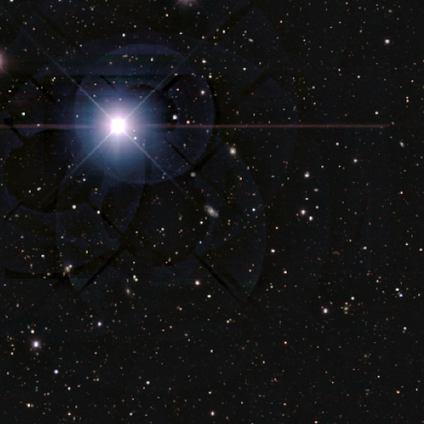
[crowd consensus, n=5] Smooth or featured? 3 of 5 (60%) said featured or disk. Edge-on disk? 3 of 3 (100%) said no. Bar? 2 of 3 (67%) said no. Spiral arms? 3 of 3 (100%) said yes. Spiral winding? 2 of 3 (67%) said medium. Spiral arm count? 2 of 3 (67%) said 2. Bulge size? 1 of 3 (33%, tied with moderate and small) said large. Merging? 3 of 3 (100%) said none.